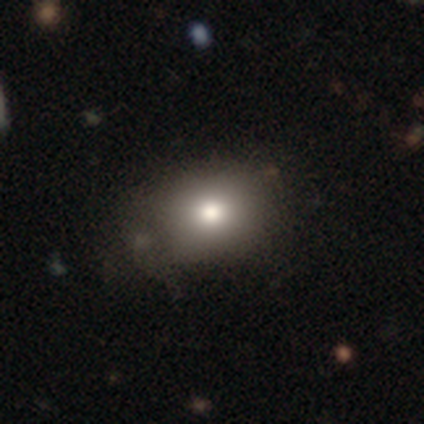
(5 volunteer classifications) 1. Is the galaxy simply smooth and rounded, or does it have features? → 80% smooth, 20% star or artifact, 0% featured or disk.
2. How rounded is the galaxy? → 50% round (tied), 50% in between (tied), 0% cigar-shaped.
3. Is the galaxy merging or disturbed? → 75% none, 25% major disturbance, 0% minor disturbance, 0% merger.